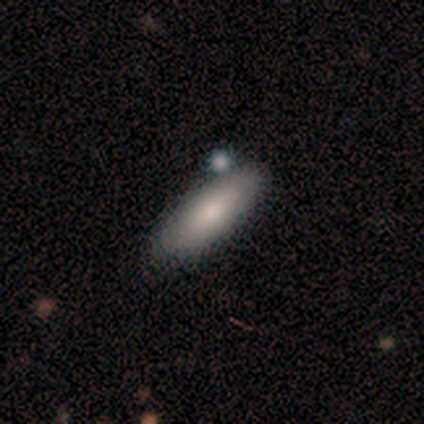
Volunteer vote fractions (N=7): Smooth or featured?
  - smooth: 100% *
  - featured or disk: 0%
  - star or artifact: 0%
How rounded?
  - in between: 57% *
  - cigar-shaped: 43%
  - round: 0%
Merging?
  - none: 71% *
  - minor disturbance: 14%
  - merger: 14%
  - major disturbance: 0%